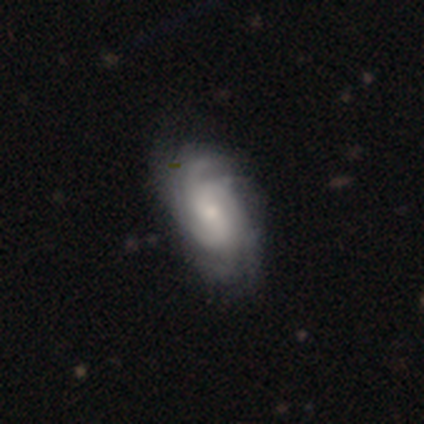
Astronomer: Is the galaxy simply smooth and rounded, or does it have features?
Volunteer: featured or disk — 77%.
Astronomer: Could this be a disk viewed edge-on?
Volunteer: no — 100%.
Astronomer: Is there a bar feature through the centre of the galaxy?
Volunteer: no — 61% (runner-up: weak, 36%).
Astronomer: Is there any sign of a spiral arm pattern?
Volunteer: yes — 98%.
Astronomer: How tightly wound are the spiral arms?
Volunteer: tight — 47% (runner-up: medium, 35%).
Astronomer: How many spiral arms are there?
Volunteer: can't tell — 45%.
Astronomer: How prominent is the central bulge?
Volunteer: small — 57%.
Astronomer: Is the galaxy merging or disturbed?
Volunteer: none — 38%.